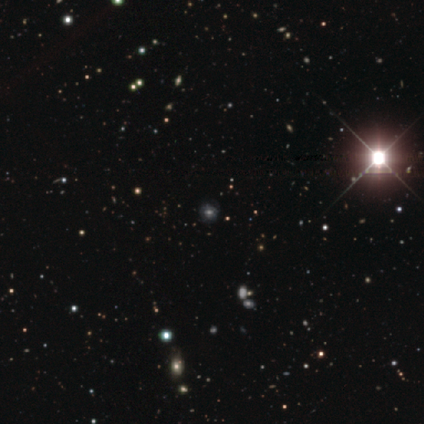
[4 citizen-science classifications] Smooth or featured: smooth — 50% (featured or disk — 25%)
How rounded: in between — 100%
Merging: none — 100%